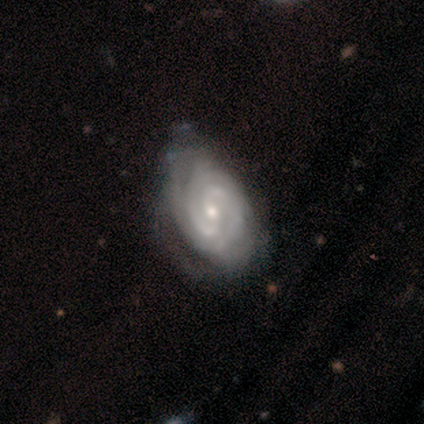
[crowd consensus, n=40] featured or disk 88%, smooth 8%, star or artifact 5%. Down the decision tree: edge-on disk — no (100%); bar — weak (57%); spiral arms — yes (100%); spiral arm count — 2 (69%); spiral winding — tight (77%); bulge size — moderate (49%); merging — none (39%).